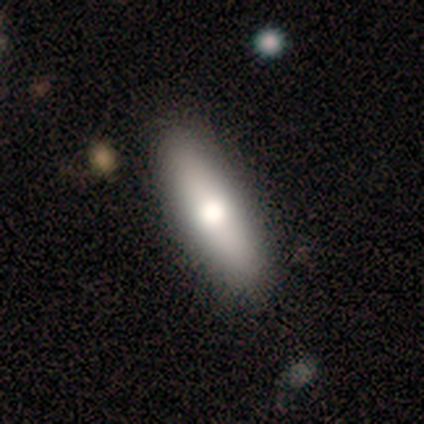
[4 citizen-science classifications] Volunteers were most divided on "how rounded": in between: 67%, cigar-shaped: 33%, round: 0%. More confident: merging — none (100%); smooth or featured — smooth (75%).